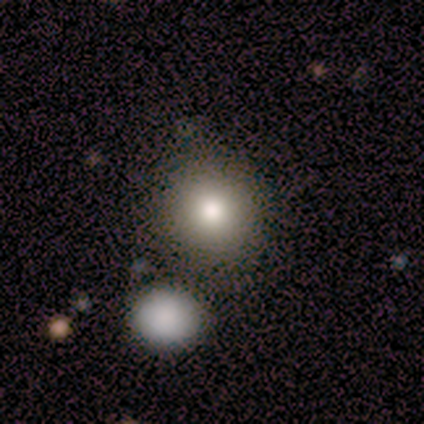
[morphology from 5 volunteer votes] Q: Smooth or featured?
A: smooth (60%); runner-up: featured or disk (20%)
Q: How rounded?
A: round (100%)
Q: Merging?
A: none (50%); tied with: merger (50%)